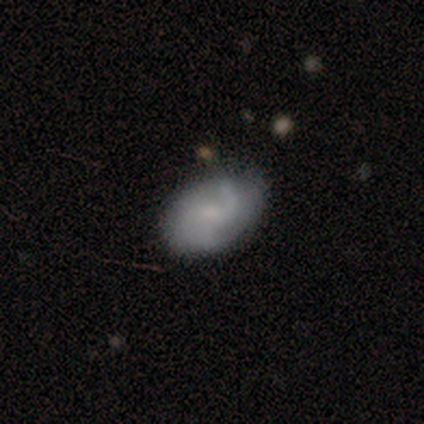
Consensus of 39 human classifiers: A smooth galaxy with no disk features (46%, tied with featured or disk) that is in between round and cigar-shaped (83%).

Vote fractions:
- Smooth or featured? smooth: 46% (tied) / featured or disk: 46% (tied) / star or artifact: 8%
- How rounded? in between: 83% / round: 17% / cigar-shaped: 0%
- Merging? none: 61% / minor disturbance: 33% / major disturbance: 3% / merger: 3%